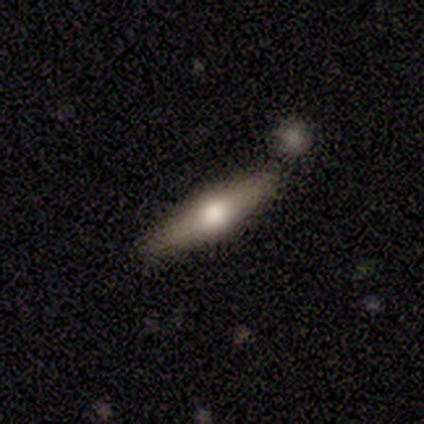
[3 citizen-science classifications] A smooth galaxy with no disk features (100%) that is cigar-shaped (67%). Merging: none (67%).